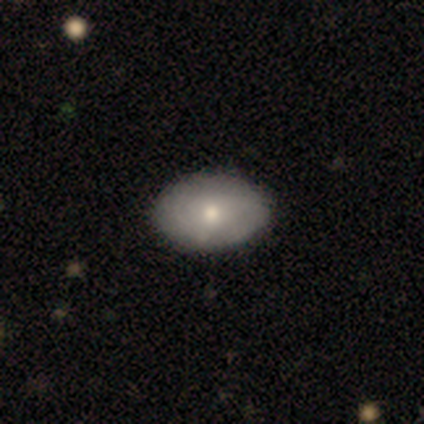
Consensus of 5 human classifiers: Smooth or featured? smooth (100%)
How rounded? in between (80%)
Merging? none (100%)